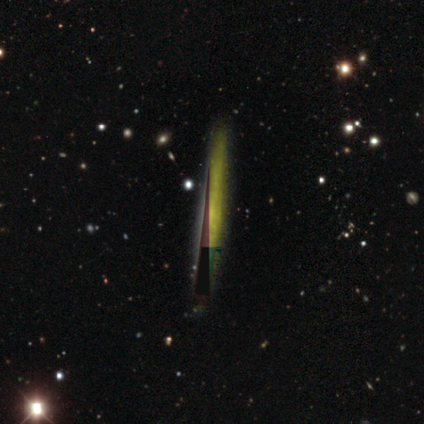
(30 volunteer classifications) A star or artifact, not a galaxy (60%).

Vote fractions:
- Smooth or featured? star or artifact: 60% / featured or disk: 30% / smooth: 10%